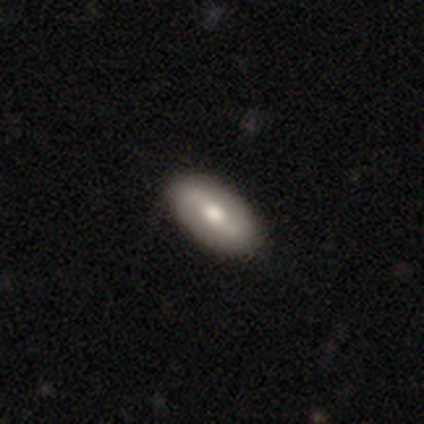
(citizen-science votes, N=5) Smooth or featured? smooth (80%)
How rounded? in between (100%)
Merging? none (100%)